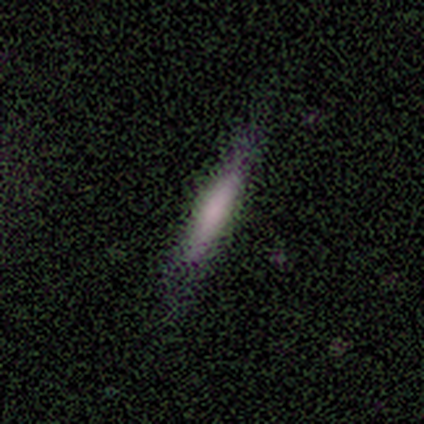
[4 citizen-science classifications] Volunteers were most divided on "merging": none: 67%, minor disturbance: 33%, major disturbance: 0%, merger: 0%. More confident: how rounded — cigar-shaped (100%); smooth or featured — smooth (75%).